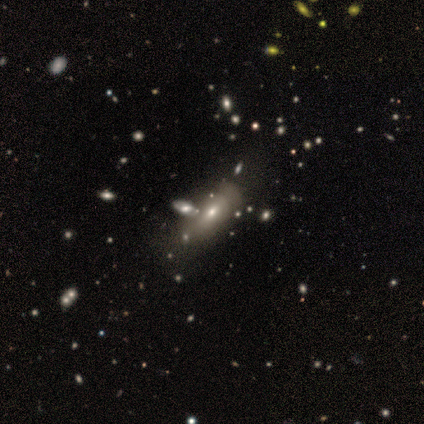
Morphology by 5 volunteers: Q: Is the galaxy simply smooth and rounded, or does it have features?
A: smooth — 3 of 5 (60%).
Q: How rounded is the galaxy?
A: in between — 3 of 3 (100%).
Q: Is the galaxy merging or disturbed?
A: minor disturbance — 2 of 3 (67%).